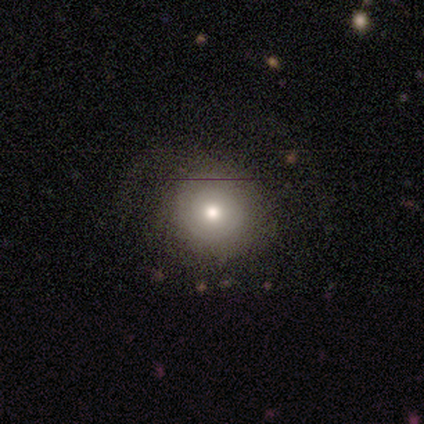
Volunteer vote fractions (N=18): Smooth or featured?
  - smooth: 83% *
  - featured or disk: 17%
  - star or artifact: 0%
How rounded?
  - round: 87% *
  - in between: 13%
  - cigar-shaped: 0%
Merging?
  - none: 83% *
  - minor disturbance: 11%
  - major disturbance: 6%
  - merger: 0%